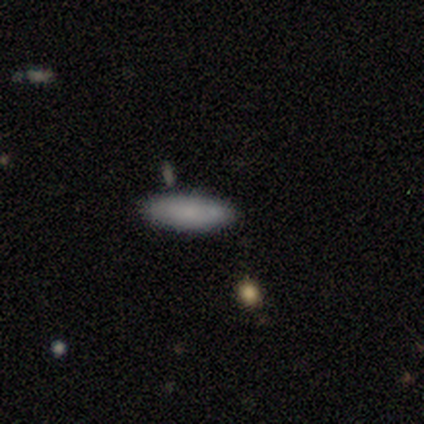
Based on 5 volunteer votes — Q: Smooth or featured?
A: smooth (80%); runner-up: featured or disk (20%)
Q: How rounded?
A: in between (50%); tied with: cigar-shaped (50%)
Q: Merging?
A: none (100%)